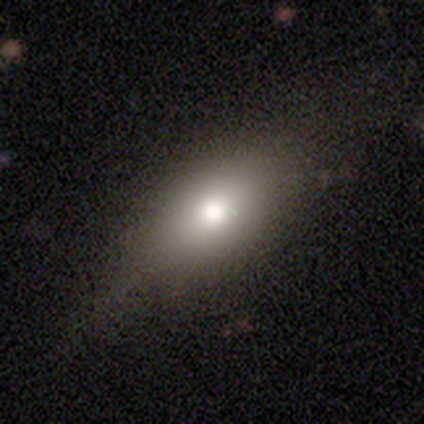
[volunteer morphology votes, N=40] This appears to be a smooth galaxy with no disk features (85%) that is in between round and cigar-shaped (88%). Merging: none (44%).